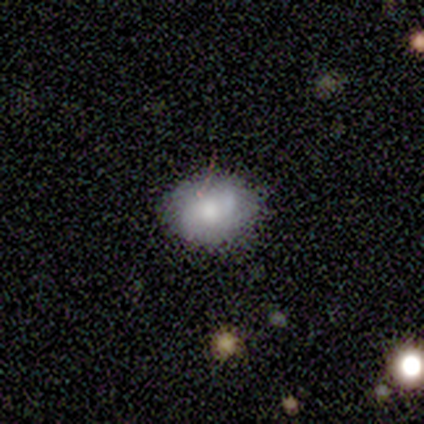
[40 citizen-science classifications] Smooth or featured: smooth — 62% (featured or disk — 32%)
How rounded: in between — 72% (round — 28%)
Merging: none — 79% (merger — 13%)